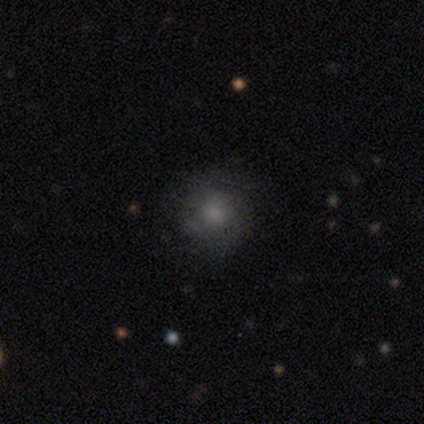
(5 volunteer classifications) Volunteers were most divided on "merging": none: 60%, minor disturbance: 20%, major disturbance: 20%, merger: 0%. More confident: how rounded — round (100%); smooth or featured — smooth (80%).